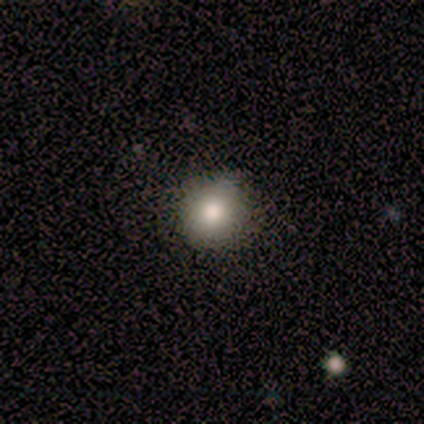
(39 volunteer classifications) smooth-or-featured: smooth: 74% | featured or disk: 15% | star or artifact: 10%
  how-rounded: round: 90% | in between: 10% | cigar-shaped: 0%
  merging: none: 91% | minor disturbance: 6% | merger: 3% | major disturbance: 0%